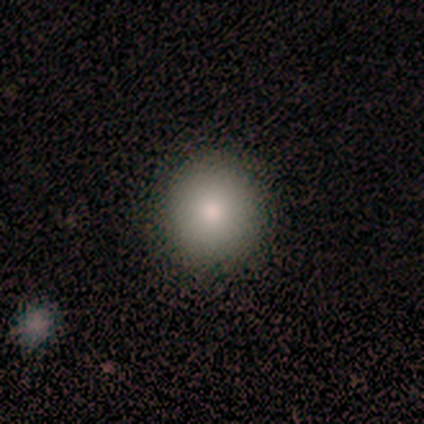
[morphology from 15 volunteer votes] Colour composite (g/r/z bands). It shows a smooth galaxy with no disk features (67%) that is round (90%). Merging: none (100%).